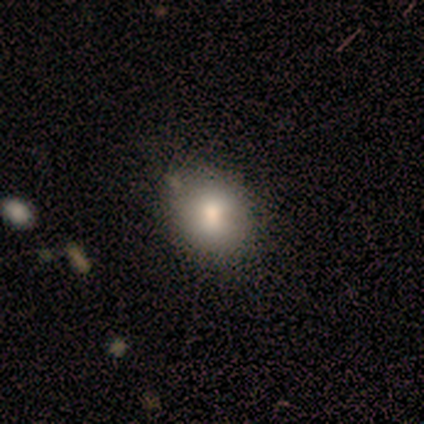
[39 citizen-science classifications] Overall: smooth (85%). How rounded: round (58%; in between 42%). Merging: none (41%; minor disturbance 14%).